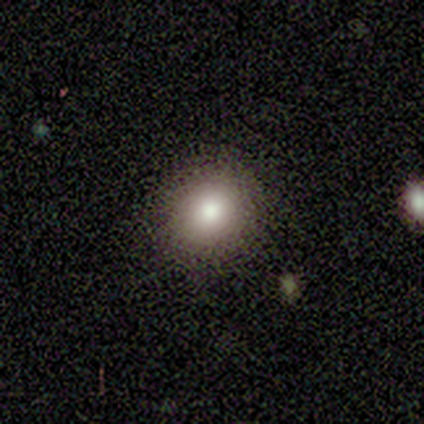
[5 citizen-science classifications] A smooth galaxy with no disk features (100%) that is round (80%).

Vote fractions:
- Smooth or featured? smooth: 100% / featured or disk: 0% / star or artifact: 0%
- How rounded? round: 80% / in between: 20% / cigar-shaped: 0%
- Merging? none: 100% / minor disturbance: 0% / major disturbance: 0% / merger: 0%